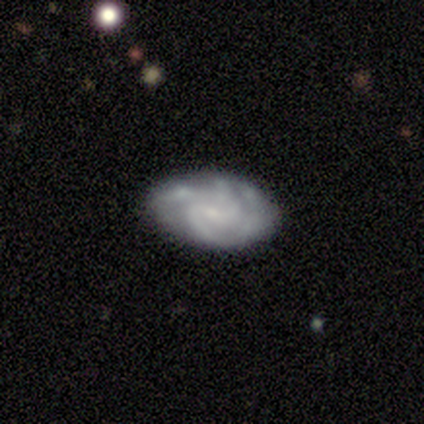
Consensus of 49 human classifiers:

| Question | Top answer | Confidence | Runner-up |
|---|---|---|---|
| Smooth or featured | featured or disk | 86% | smooth (10%) |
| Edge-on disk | no | 98% | yes (2%) |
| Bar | weak | 61% | no (37%) |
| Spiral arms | yes | 88% | no (12%) |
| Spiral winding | medium | 50% | tight (42%) |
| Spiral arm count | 2 | 53% | 4 (19%) |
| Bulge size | small | 71% | none (17%) |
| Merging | none | 64% | minor disturbance (32%) |